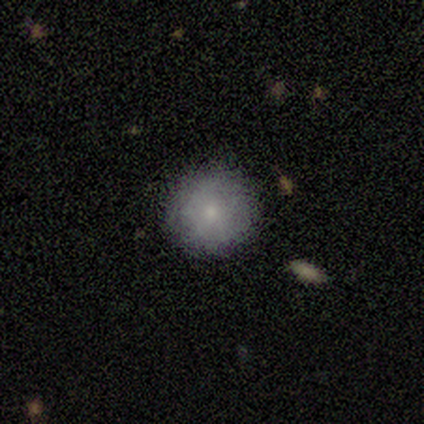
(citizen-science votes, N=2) A smooth galaxy with no disk features (100%) that is round (100%). Merging: none (100%).